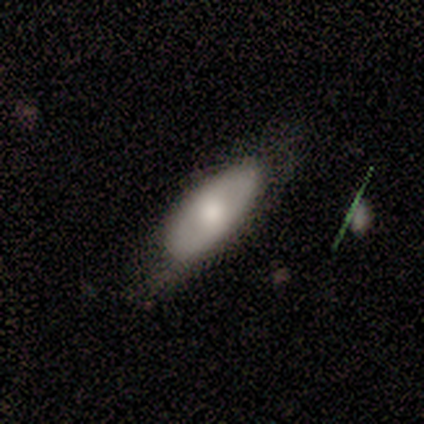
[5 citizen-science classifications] smooth_or_featured: smooth (p=0.80) [alt: featured or disk p=0.20]
how_rounded: in between (p=1.00)
merging: none (p=0.40) [tied with: major disturbance p=0.40]